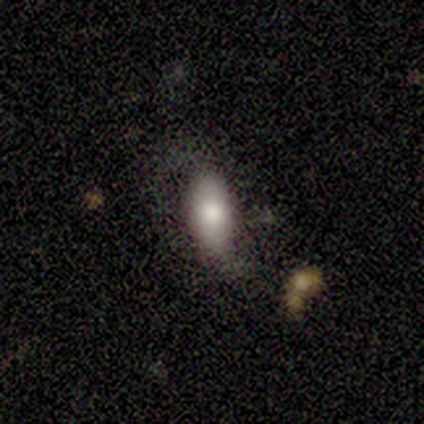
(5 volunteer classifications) smooth 80%, featured or disk 20%, star or artifact 0%. Down the decision tree: how rounded — in between (100%); merging — none (60%).